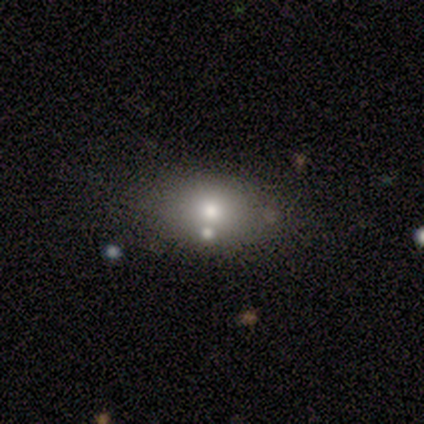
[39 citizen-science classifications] smooth 74%, featured or disk 18%, star or artifact 8%. Down the decision tree: how rounded — in between (72%); merging — none (81%).